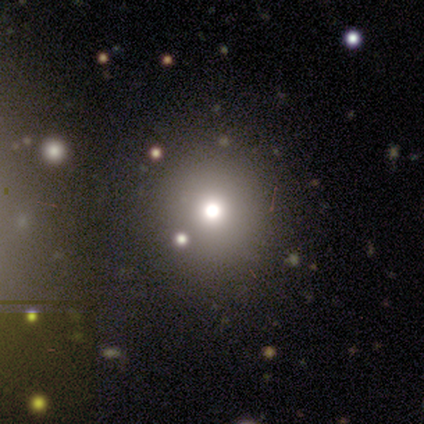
Smooth or featured? smooth (67%)
How rounded? round (100%)
Merging? none (100%)